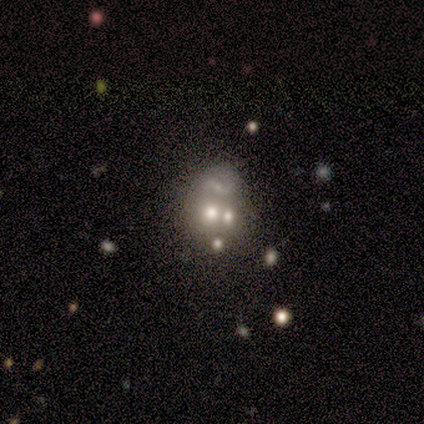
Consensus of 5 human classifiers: smooth_or_featured: featured or disk (p=0.40) [tied with: star or artifact p=0.40]
disk_edge_on: no (p=1.00)
bar: no (p=1.00)
has_spiral_arms: no (p=1.00)
bulge_size: none (p=1.00)
merging: none (p=0.33) [tied with: major disturbance p=0.33, merger p=0.33]